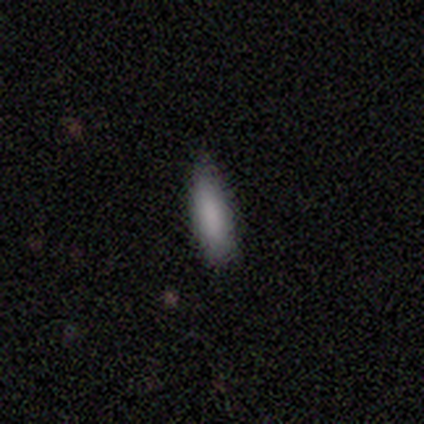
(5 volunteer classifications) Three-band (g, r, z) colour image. It shows a smooth galaxy with no disk features (100%) that is in between round and cigar-shaped (60%). Merging: none (100%).